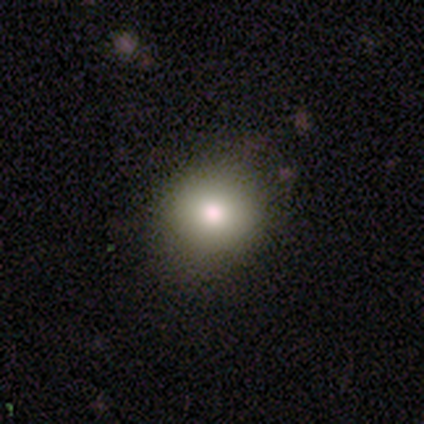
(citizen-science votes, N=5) Smooth or featured: smooth — 100%
How rounded: round — 100%
Merging: none — 100%